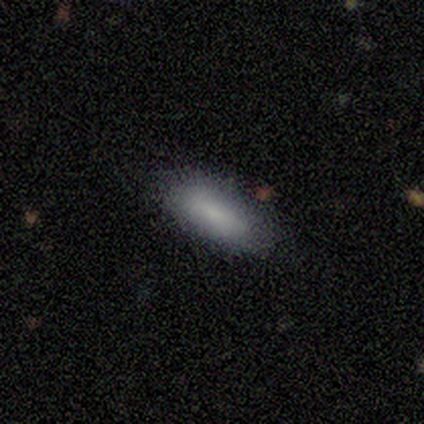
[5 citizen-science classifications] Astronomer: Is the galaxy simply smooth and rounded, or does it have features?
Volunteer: smooth — 80%.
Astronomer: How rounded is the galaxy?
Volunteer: in between — 100%.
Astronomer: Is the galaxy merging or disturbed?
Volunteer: none — 100%.